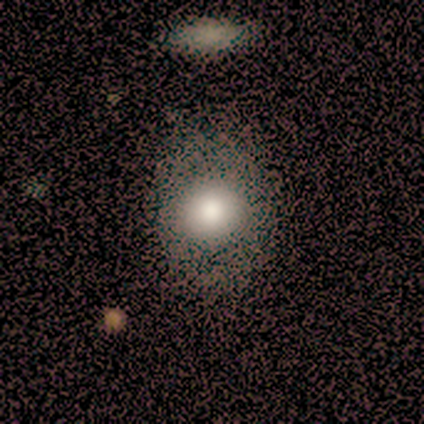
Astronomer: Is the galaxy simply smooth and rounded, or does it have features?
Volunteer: smooth — 79%.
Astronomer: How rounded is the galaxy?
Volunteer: round — 63%.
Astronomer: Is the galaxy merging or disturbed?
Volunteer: none — 70%.